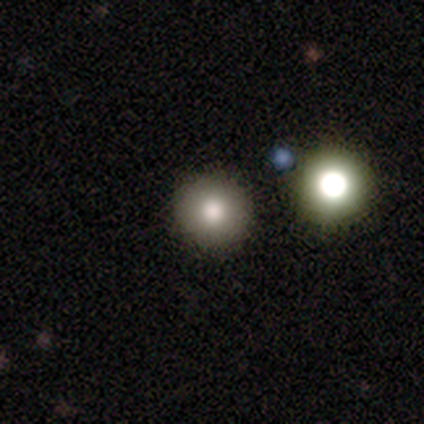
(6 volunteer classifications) Smooth or featured: smooth — 83% (featured or disk — 17%)
How rounded: round — 100%
Merging: none — 83% (merger — 17%)